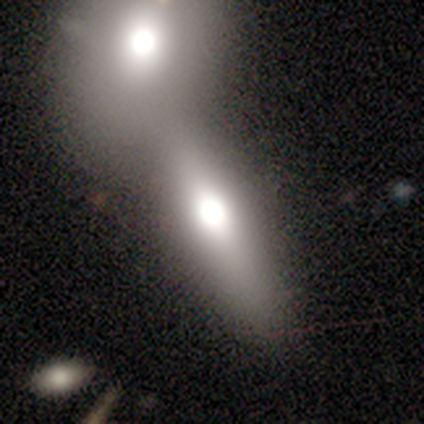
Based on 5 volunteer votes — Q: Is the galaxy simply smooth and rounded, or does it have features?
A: smooth — 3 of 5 (60%).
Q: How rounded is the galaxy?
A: in between — 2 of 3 (67%).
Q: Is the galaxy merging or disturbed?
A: merger — 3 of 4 (75%).